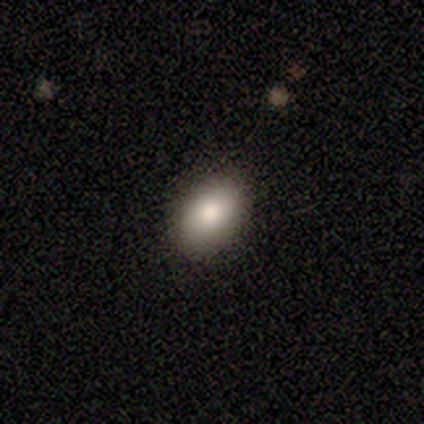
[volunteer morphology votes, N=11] Consensus on every question: smooth or featured — smooth (100%); how rounded — in between (100%); merging — none (100%).